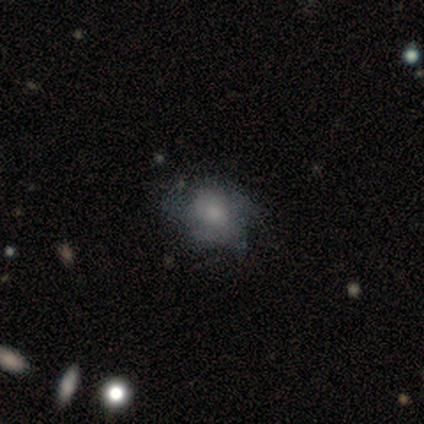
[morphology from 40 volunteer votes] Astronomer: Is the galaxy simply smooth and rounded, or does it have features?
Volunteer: smooth — 55% (runner-up: featured or disk, 35%).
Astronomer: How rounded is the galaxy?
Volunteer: in between — 64%.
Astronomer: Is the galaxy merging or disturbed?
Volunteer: none — 50% (runner-up: minor disturbance, 39%).